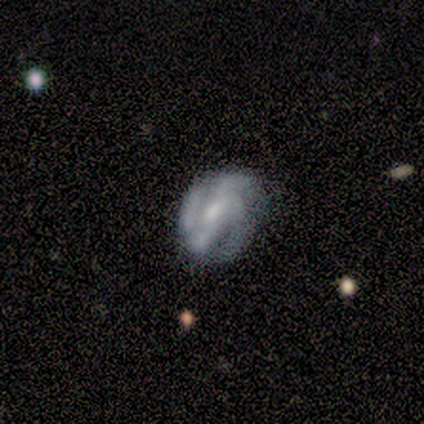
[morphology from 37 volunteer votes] Volunteers were most divided on "spiral winding": tight: 50%, medium: 42%, loose: 8%. More confident: edge-on disk — no (96%); spiral arms — yes (96%); smooth or featured — featured or disk (76%); bulge size — moderate (63%); bar — weak (59%); merging — none (54%); spiral arm count — 3 (50%).